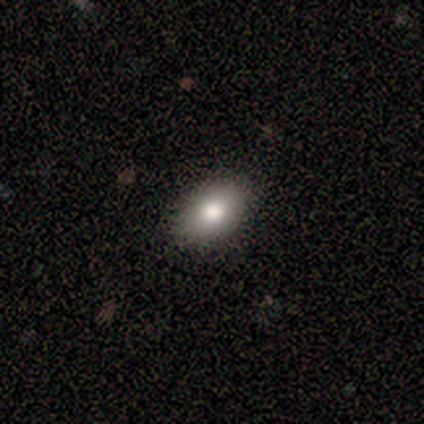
Volunteers were most divided on "smooth or featured": smooth: 88%, featured or disk: 12%, star or artifact: 0%. More confident: how rounded — in between (100%); merging — none (100%).